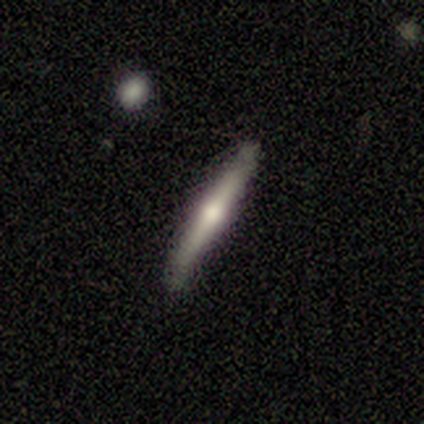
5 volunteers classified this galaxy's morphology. smooth-or-featured: featured or disk: 60% | smooth: 40% | star or artifact: 0%
  disk-edge-on: yes: 100% | no: 0%
    edge-on-bulge: rounded: 100% | boxy: 0% | none: 0%
  merging: none: 100% | minor disturbance: 0% | major disturbance: 0% | merger: 0%